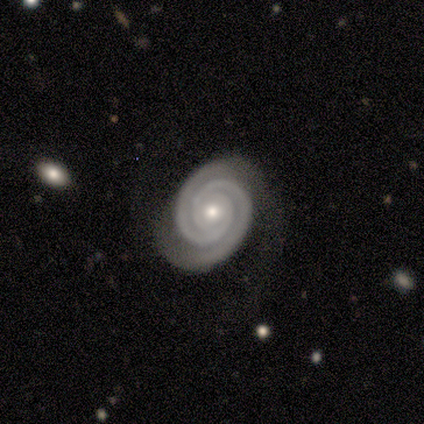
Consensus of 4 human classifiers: featured or disk 100%, smooth 0%, star or artifact 0%. Down the decision tree: edge-on disk — no (75%); bar — no (67%); spiral arms — yes (100%); spiral arm count — 2 (100%); spiral winding — tight (100%); bulge size — small (67%); merging — none (50%, tied with minor disturbance).